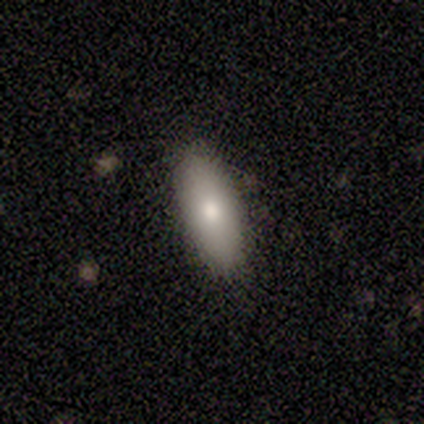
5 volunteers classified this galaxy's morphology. smooth_or_featured: smooth (p=0.80) [alt: featured or disk p=0.20]
how_rounded: in between (p=1.00)
merging: none (p=1.00)